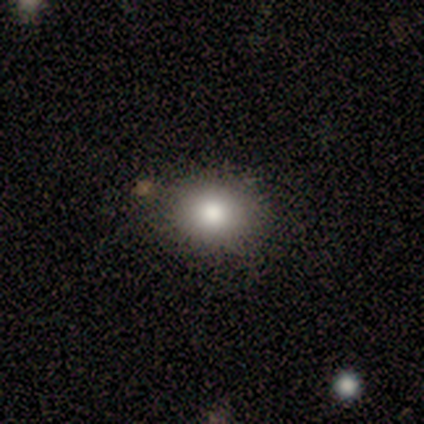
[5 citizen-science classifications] Q: Smooth or featured?
A: smooth (80%); runner-up: featured or disk (20%)
Q: How rounded?
A: round (50%); tied with: in between (50%)
Q: Merging?
A: none (100%)